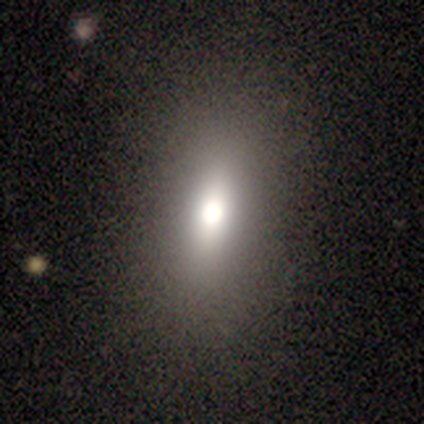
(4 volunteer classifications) Smooth or featured? smooth (75%)
How rounded? in between (100%)
Merging? none (75%)